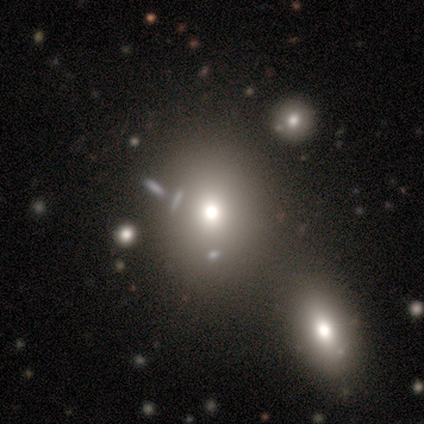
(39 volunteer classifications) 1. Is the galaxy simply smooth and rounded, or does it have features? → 74% smooth, 21% star or artifact, 5% featured or disk.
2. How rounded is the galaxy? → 52% round, 48% in between, 0% cigar-shaped.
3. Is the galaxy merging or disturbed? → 65% none, 19% merger, 10% major disturbance, 6% minor disturbance.